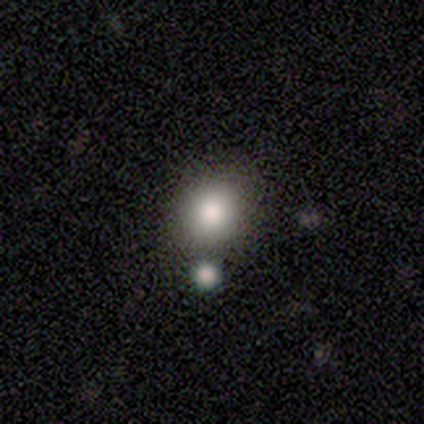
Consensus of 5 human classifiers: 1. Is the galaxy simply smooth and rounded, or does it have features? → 60% smooth, 40% star or artifact, 0% featured or disk.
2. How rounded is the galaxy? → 67% round, 33% in between, 0% cigar-shaped.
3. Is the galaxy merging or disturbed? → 100% none, 0% minor disturbance, 0% major disturbance, 0% merger.